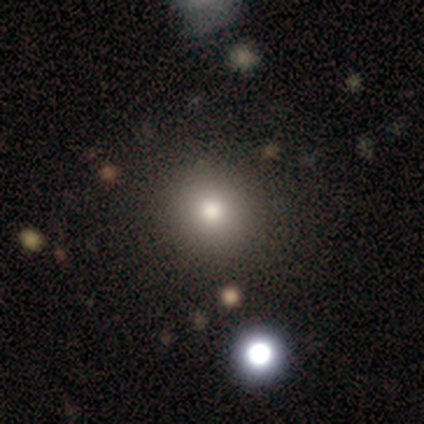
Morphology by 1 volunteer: Smooth or featured? 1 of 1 (100%) said smooth. How rounded? 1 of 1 (100%) said round. Merging? 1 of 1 (100%) said none.